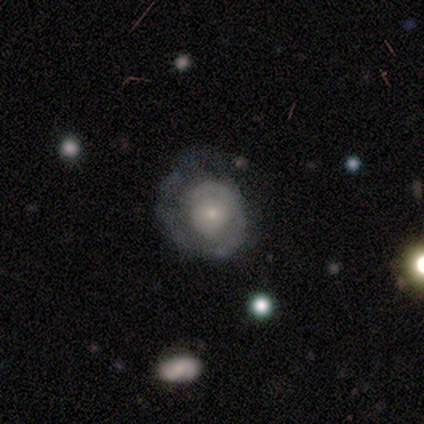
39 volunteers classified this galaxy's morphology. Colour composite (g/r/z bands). It shows a featured or disk galaxy (82%) with no bar (81%), 1 (58%) tight (65%) spiral arms (84%) and a small central bulge (77%). Merging: none (63%).